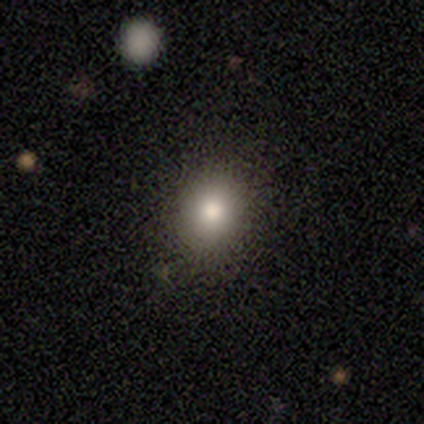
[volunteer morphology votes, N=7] smooth-or-featured: smooth: 86% | star or artifact: 14% | featured or disk: 0%
  how-rounded: round: 83% | in between: 17% | cigar-shaped: 0%
  merging: none: 100% | minor disturbance: 0% | major disturbance: 0% | merger: 0%